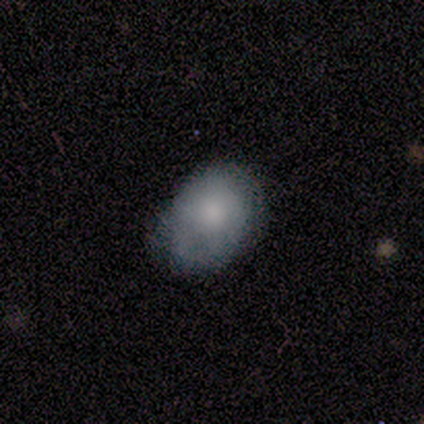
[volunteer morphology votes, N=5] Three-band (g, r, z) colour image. It shows a smooth galaxy with no disk features (100%) that is in between round and cigar-shaped (80%). Merging: minor disturbance (80%).